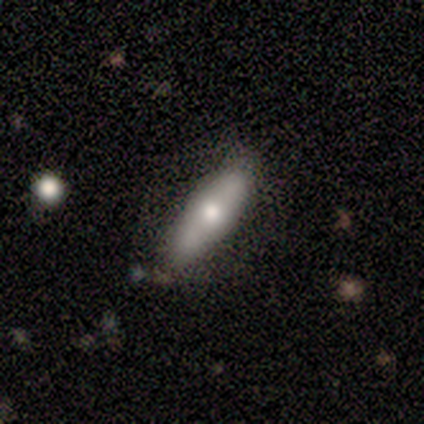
Morphology: type=featured or disk (60%); edge-on=yes (67%); edge-on bulge=rounded (75%); merging=none (70%).